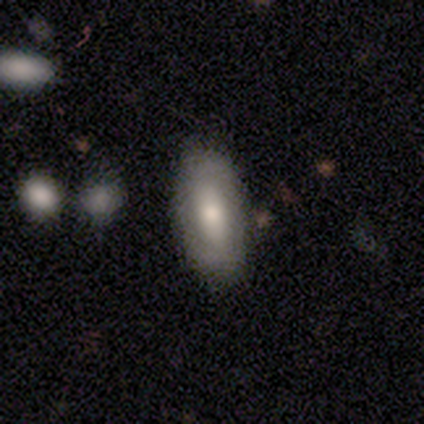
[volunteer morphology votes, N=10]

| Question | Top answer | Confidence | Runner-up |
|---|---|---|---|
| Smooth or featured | smooth | 60% | featured or disk (40%) |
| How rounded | in between | 83% | cigar-shaped (17%) |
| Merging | none | 100% | — |